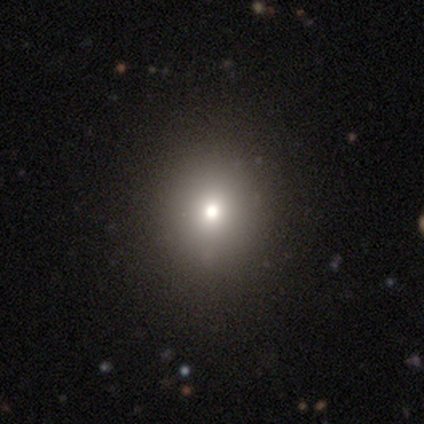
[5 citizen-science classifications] Volunteers were most divided on "smooth or featured": smooth: 60%, featured or disk: 20%, star or artifact: 20%. More confident: how rounded — round (100%); merging — none (75%).